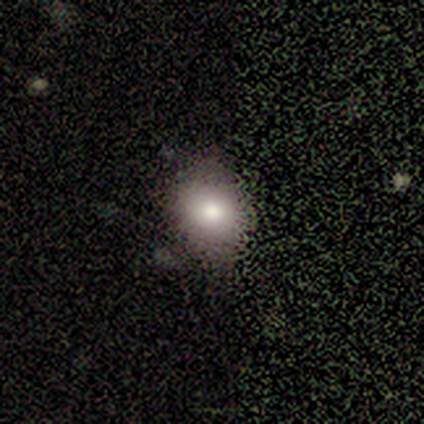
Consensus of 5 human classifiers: Smooth or featured? 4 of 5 (80%) said smooth. How rounded? 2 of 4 (50%, tied with in between) said round. Merging? 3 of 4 (75%) said none.